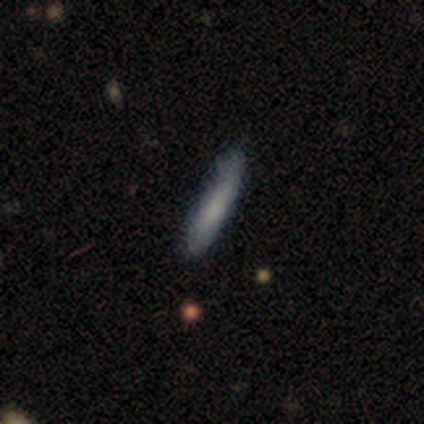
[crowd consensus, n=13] Volunteers were most divided on "smooth or featured": smooth: 62%, featured or disk: 31%, star or artifact: 8%. More confident: how rounded — cigar-shaped (100%); merging — none (83%).